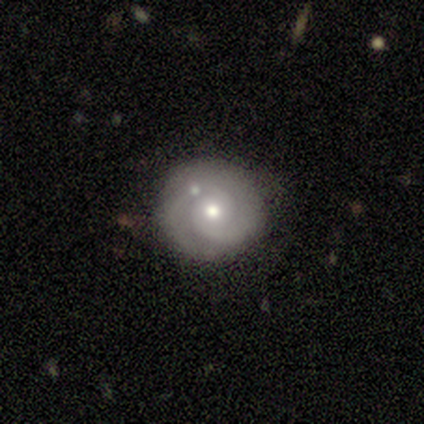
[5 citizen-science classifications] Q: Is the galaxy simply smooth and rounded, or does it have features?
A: featured or disk — 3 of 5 (60%).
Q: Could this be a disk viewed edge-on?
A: no — 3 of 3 (100%).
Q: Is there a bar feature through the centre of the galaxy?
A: no — 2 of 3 (67%).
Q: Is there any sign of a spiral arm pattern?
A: yes — 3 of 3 (100%).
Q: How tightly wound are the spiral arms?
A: tight — 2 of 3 (67%).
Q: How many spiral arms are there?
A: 2 — 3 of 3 (100%).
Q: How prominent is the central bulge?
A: moderate — 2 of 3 (67%).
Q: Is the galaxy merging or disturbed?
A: none — 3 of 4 (75%).